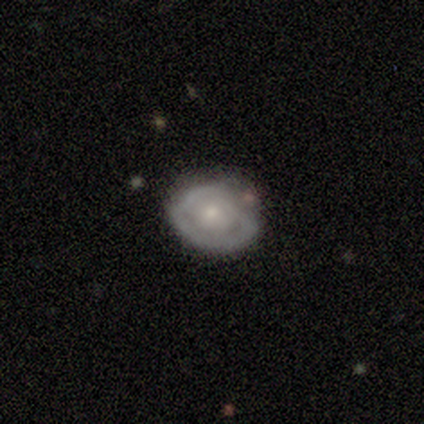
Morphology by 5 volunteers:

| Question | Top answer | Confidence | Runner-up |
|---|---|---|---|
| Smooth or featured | featured or disk | 60% | smooth (20%) |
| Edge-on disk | no | 100% | — |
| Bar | no | 67% | weak (33%) |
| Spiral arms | no | 100% | — |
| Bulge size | moderate | 100% | — |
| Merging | none | 75% | minor disturbance (25%) |